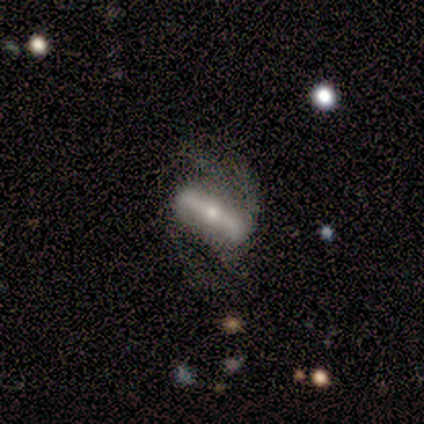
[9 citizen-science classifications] Smooth or featured?
  - featured or disk: 67% *
  - smooth: 33%
  - star or artifact: 0%
Edge-on disk?
  - no: 67% *
  - yes: 33%
Bar?
  - strong: 100% *
  - weak: 0%
  - no: 0%
Spiral arms?
  - no: 100% *
  - yes: 0%
Bulge size?
  - small: 100% *
  - dominant: 0%
  - large: 0%
  - moderate: 0%
  - none: 0%
Merging?
  - major disturbance: 56% *
  - none: 22%
  - minor disturbance: 22%
  - merger: 0%